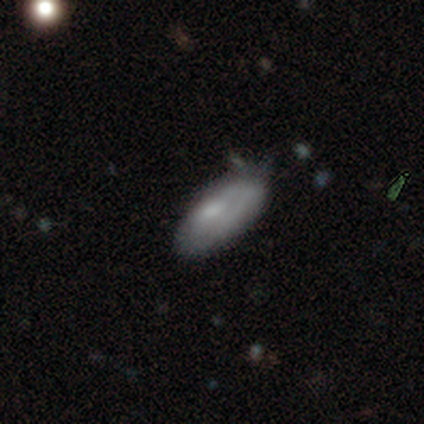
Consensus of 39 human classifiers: smooth-or-featured: smooth: 62% | featured or disk: 26% | star or artifact: 13%
  how-rounded: in between: 100% | round: 0% | cigar-shaped: 0%
  merging: none: 44% | minor disturbance: 41% | major disturbance: 9% | merger: 6%